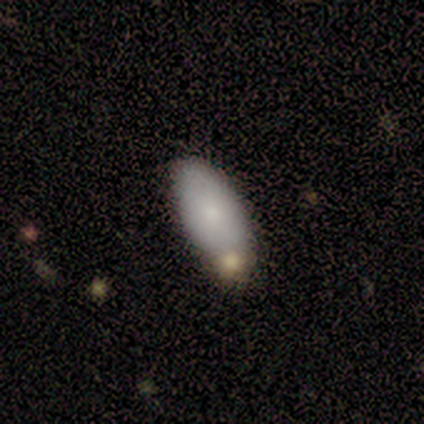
smooth 87%, featured or disk 13%, star or artifact 0%. Down the decision tree: how rounded — in between (94%); merging — none (67%).